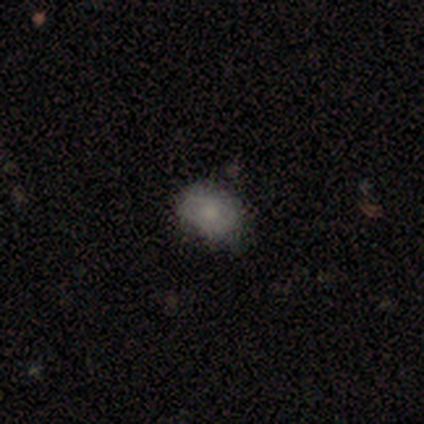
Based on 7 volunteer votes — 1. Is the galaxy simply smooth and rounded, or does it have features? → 71% smooth, 14% featured or disk, 14% star or artifact.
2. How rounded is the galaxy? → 60% in between, 40% round, 0% cigar-shaped.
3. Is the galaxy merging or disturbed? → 50% none (tied), 50% minor disturbance (tied), 0% major disturbance, 0% merger.